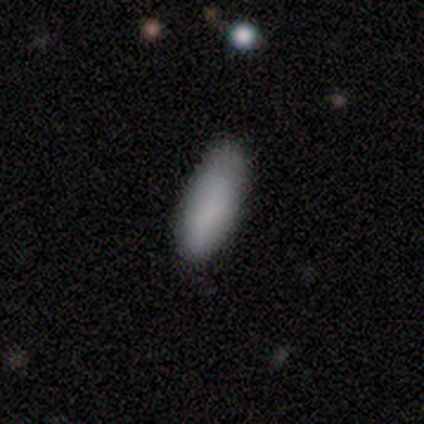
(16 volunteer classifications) This is clearly a smooth galaxy (88%). How rounded: clearly in between (93%). Merging: likely none (73%).